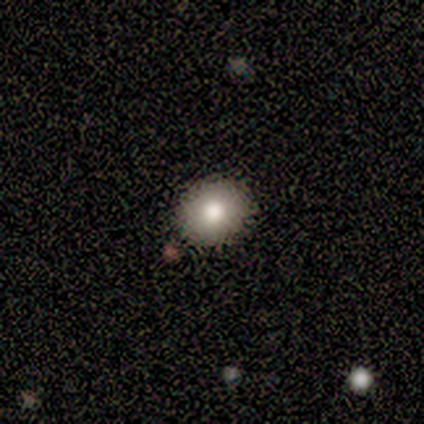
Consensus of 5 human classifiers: Smooth or featured?
  - smooth: 80% *
  - featured or disk: 20%
  - star or artifact: 0%
How rounded?
  - round: 50% * (tied)
  - in between: 50% * (tied)
  - cigar-shaped: 0%
Merging?
  - none: 80% *
  - minor disturbance: 20%
  - major disturbance: 0%
  - merger: 0%